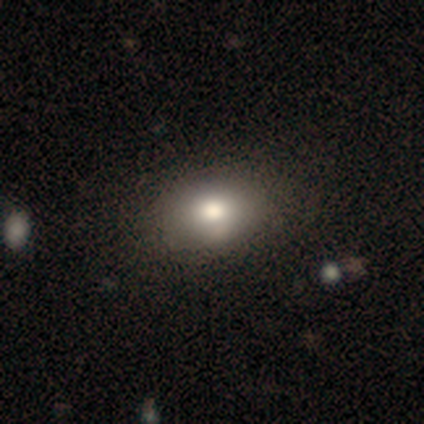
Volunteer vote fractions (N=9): This appears to be a smooth galaxy with no disk features (56%) that is in between round and cigar-shaped (100%). Merging: none (71%).